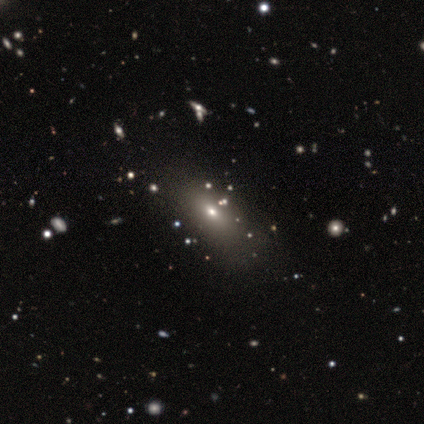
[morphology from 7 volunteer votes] Q: Smooth or featured?
A: smooth (71%); runner-up: featured or disk (14%)
Q: How rounded?
A: in between (60%); runner-up: round (20%)
Q: Merging?
A: none (67%); runner-up: minor disturbance (33%)